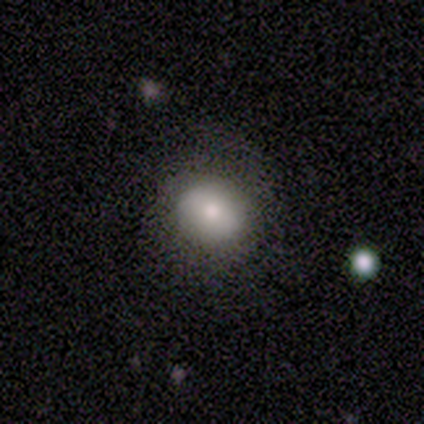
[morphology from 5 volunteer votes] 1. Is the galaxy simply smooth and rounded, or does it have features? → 60% smooth, 40% featured or disk, 0% star or artifact.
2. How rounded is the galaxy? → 100% round, 0% in between, 0% cigar-shaped.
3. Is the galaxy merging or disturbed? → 100% none, 0% minor disturbance, 0% major disturbance, 0% merger.